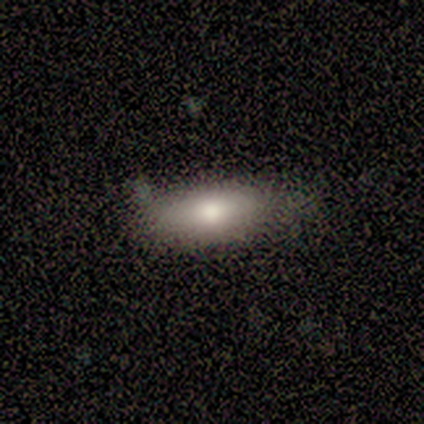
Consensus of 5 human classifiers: smooth-or-featured: smooth: 60% | featured or disk: 40% | star or artifact: 0%
  how-rounded: in between: 100% | round: 0% | cigar-shaped: 0%
  merging: none: 60% | minor disturbance: 40% | major disturbance: 0% | merger: 0%